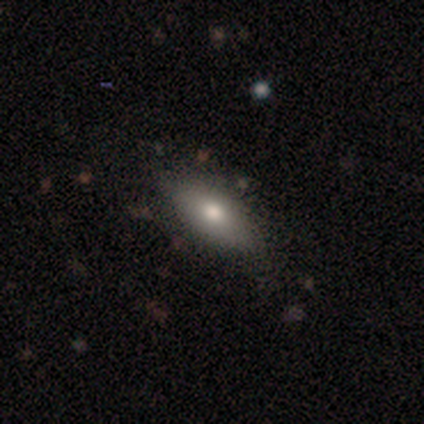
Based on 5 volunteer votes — Overall: smooth (100%). How rounded: in between (80%). Merging: none (80%).